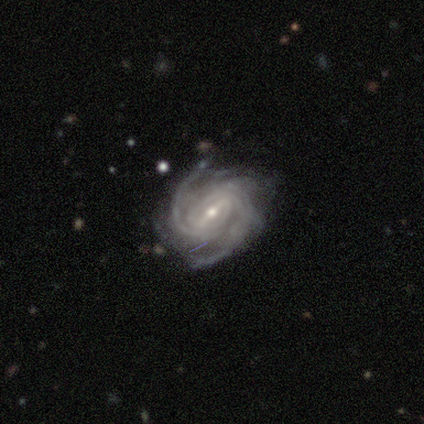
Smooth or featured? 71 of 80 (89%) said featured or disk. Edge-on disk? 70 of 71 (99%) said no. Bar? 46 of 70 (66%) said strong. Spiral arms? 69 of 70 (99%) said yes. Spiral winding? 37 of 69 (54%) said tight. Spiral arm count? 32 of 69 (46%) said 2. Bulge size? 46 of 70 (66%) said small. Merging? 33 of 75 (44%) said none.